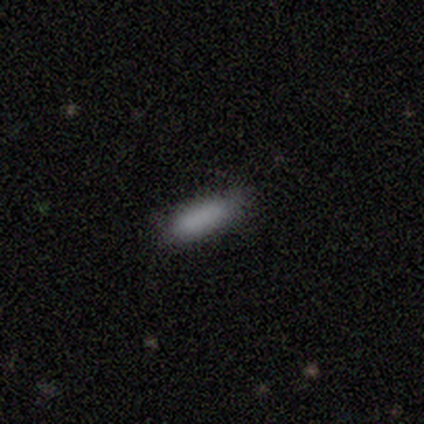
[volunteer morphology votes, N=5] Smooth or featured? 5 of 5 (100%) said smooth. How rounded? 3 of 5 (60%) said in between. Merging? 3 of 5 (60%) said none.